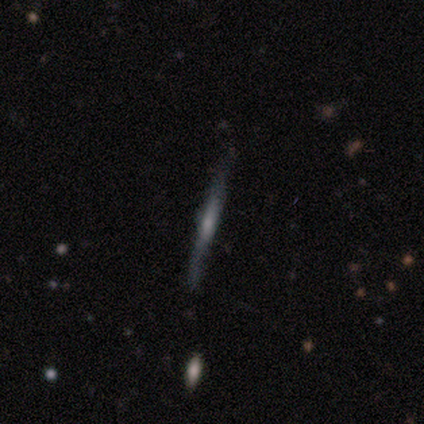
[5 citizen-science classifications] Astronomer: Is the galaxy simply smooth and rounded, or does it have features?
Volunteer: featured or disk — 100%.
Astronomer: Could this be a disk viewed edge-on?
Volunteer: yes — 100%.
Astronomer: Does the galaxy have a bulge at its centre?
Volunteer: rounded — 60%.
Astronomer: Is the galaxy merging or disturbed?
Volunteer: none — 60%.